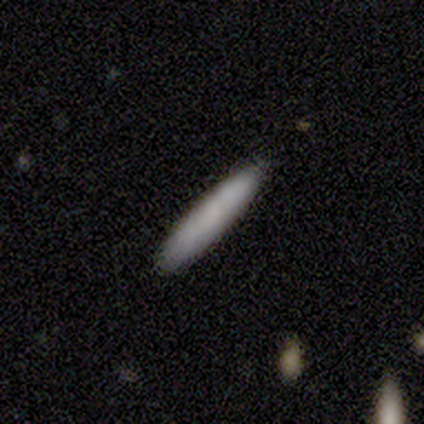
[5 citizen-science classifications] Smooth or featured?
  - smooth: 100% *
  - featured or disk: 0%
  - star or artifact: 0%
How rounded?
  - cigar-shaped: 100% *
  - round: 0%
  - in between: 0%
Merging?
  - none: 80% *
  - minor disturbance: 20%
  - major disturbance: 0%
  - merger: 0%